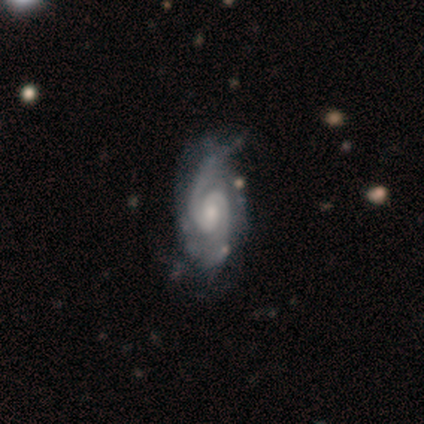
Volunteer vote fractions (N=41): smooth_or_featured: featured or disk (p=0.90) [alt: star or artifact p=0.07]
disk_edge_on: no (p=1.00)
bar: no (p=0.62) [alt: weak p=0.30]
has_spiral_arms: yes (p=1.00)
spiral_winding: medium (p=0.49) [alt: tight p=0.32]
spiral_arm_count: 2 (p=0.84) [alt: 3 p=0.14]
bulge_size: moderate (p=0.54) [alt: small p=0.35]
merging: none (p=0.55) [alt: minor disturbance p=0.29]